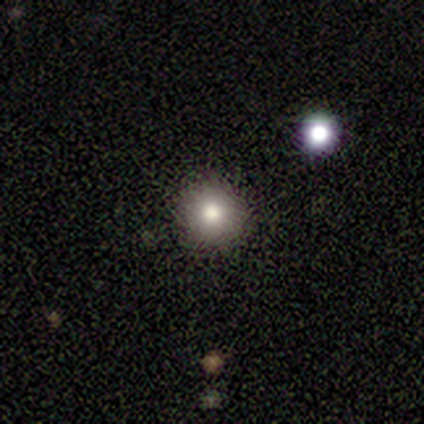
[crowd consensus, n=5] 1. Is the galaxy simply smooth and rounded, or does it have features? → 80% smooth, 20% featured or disk, 0% star or artifact.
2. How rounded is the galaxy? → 100% round, 0% in between, 0% cigar-shaped.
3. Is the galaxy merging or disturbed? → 100% none, 0% minor disturbance, 0% major disturbance, 0% merger.